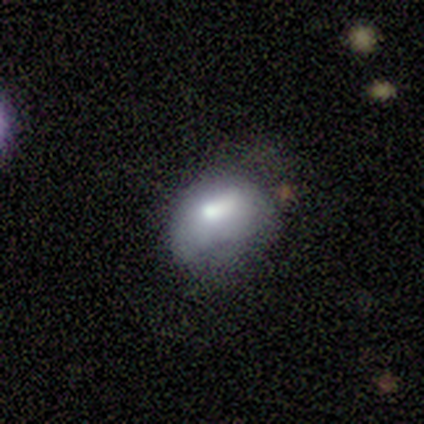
smooth_or_featured: smooth (p=0.68) [alt: featured or disk p=0.20]
how_rounded: in between (p=0.67) [alt: round p=0.33]
merging: none (p=0.43) [alt: minor disturbance p=0.34]